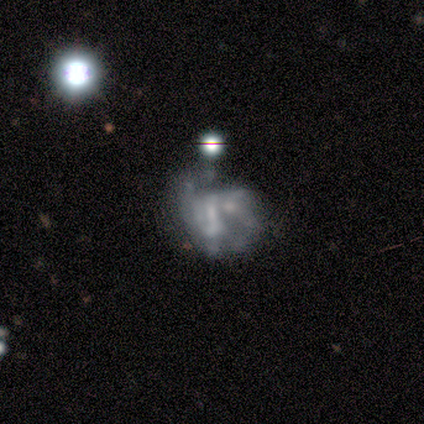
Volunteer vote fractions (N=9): Smooth or featured? featured or disk (78%)
Edge-on disk? no (86%)
Bar? no (83%)
Spiral arms? yes (67%)
Spiral winding? medium (75%)
Spiral arm count? can't tell (100%)
Bulge size? moderate (50%, tied with none)
Merging? minor disturbance (62%)